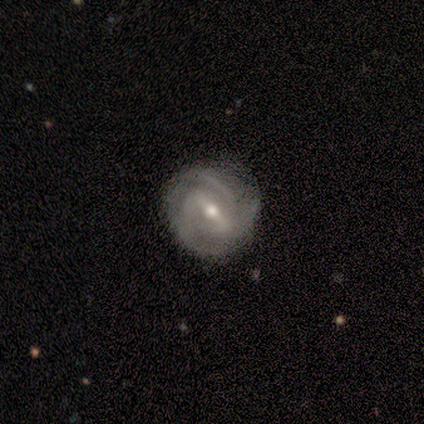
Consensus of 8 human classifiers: A featured or disk galaxy (100%) with a strong bar (50%, tied with weak), 3 (88%) tight (62%) spiral arms (100%) and a moderate central bulge (75%).

Vote fractions:
- Smooth or featured? featured or disk: 100% / smooth: 0% / star or artifact: 0%
- Edge-on disk? no: 100% / yes: 0%
- Bar? strong: 50% (tied) / weak: 50% (tied) / no: 0%
- Spiral arms? yes: 100% / no: 0%
- Spiral winding? tight: 62% / medium: 38% / loose: 0%
- Spiral arm count? 3: 88% / can't tell: 12% / 1: 0% / 2: 0% / 4: 0% / more than 4: 0%
- Bulge size? moderate: 75% / small: 25% / dominant: 0% / large: 0% / none: 0%
- Merging? none: 88% / minor disturbance: 12% / major disturbance: 0% / merger: 0%